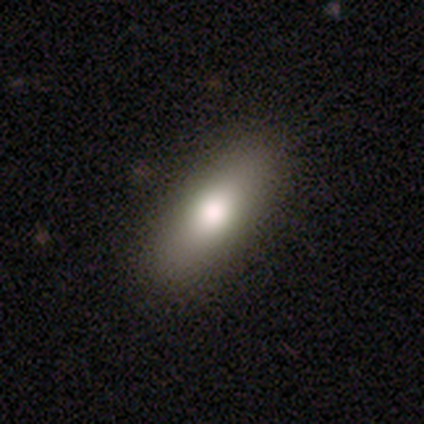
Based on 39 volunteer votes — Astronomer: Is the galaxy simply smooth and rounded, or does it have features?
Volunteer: smooth — 74%.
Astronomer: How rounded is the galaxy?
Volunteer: in between — 52% (runner-up: cigar-shaped, 38%).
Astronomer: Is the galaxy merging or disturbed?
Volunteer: none — 97%.